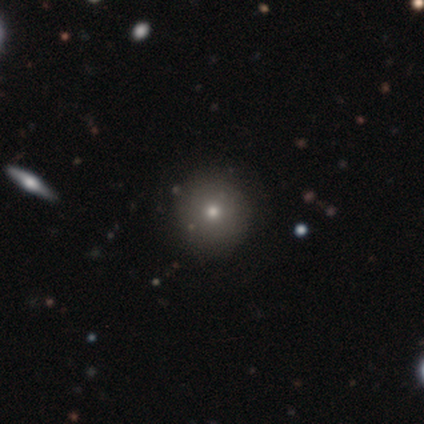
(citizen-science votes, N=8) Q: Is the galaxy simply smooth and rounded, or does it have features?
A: smooth — 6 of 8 (75%).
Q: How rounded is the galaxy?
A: round — 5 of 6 (83%).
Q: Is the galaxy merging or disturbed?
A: none — 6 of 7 (86%).